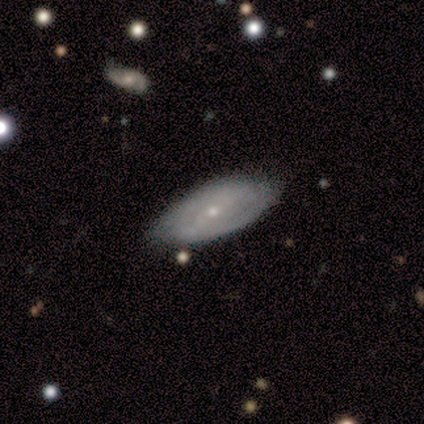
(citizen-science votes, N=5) featured or disk 60%, smooth 40%, star or artifact 0%. Down the decision tree: edge-on disk — no (100%); bar — no (67%); spiral arms — no (100%); bulge size — small (100%); merging — minor disturbance (60%).